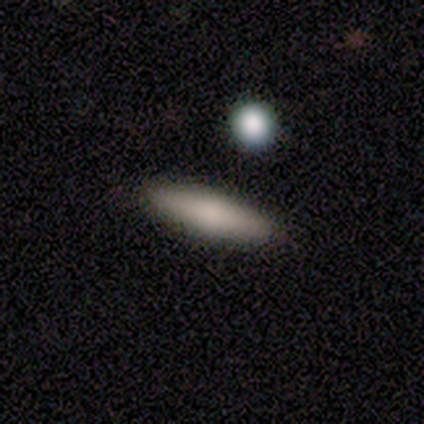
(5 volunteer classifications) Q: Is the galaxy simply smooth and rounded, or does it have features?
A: smooth — 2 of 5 (40%, tied with star or artifact).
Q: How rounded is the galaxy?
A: cigar-shaped — 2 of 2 (100%).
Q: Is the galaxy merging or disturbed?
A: none — 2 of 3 (67%).